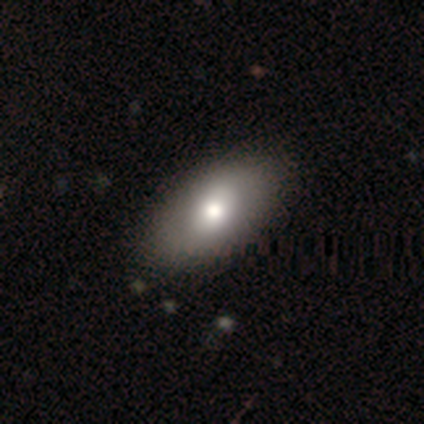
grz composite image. It shows a smooth galaxy with no disk features (60%) that is in between round and cigar-shaped (100%). Merging: none (100%).